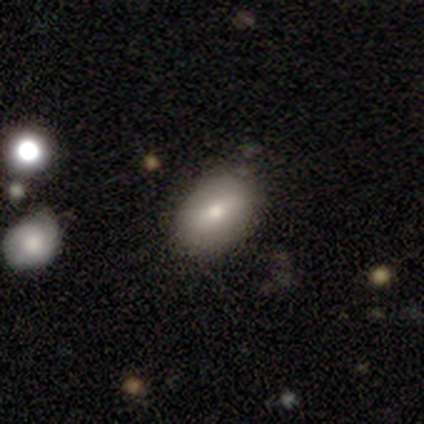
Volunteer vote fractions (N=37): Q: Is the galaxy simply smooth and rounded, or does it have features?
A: smooth — 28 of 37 (76%).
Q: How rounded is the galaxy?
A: in between — 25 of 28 (89%).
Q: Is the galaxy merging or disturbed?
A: none — 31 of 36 (86%).